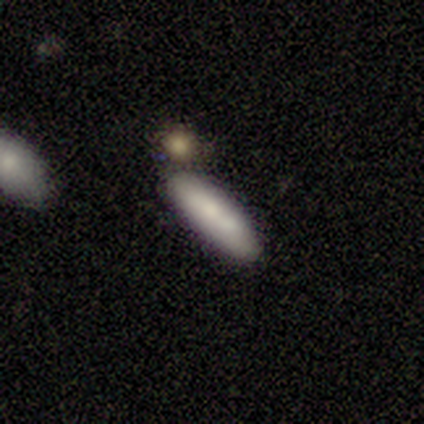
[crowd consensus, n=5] This is likely a smooth galaxy (60%). How rounded: likely cigar-shaped (67%). Merging: marginally none (40%, tied with minor disturbance).